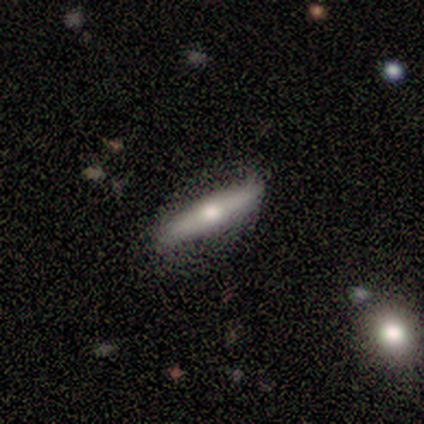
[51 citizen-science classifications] Volunteers were most divided on "smooth or featured": featured or disk: 57%, smooth: 29%, star or artifact: 14%. More confident: edge-on bulge — rounded (83%); edge-on disk — yes (83%); merging — none (77%).